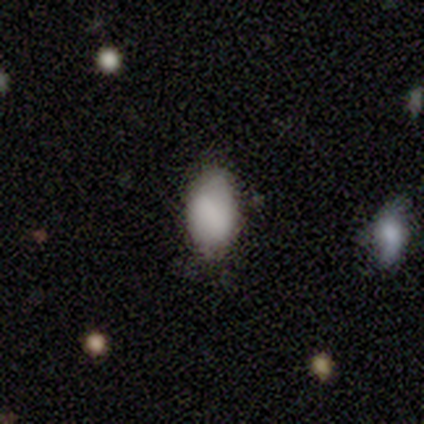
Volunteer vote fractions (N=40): A smooth galaxy with no disk features (82%) that is in between round and cigar-shaped (94%).

Vote fractions:
- Smooth or featured? smooth: 82% / star or artifact: 10% / featured or disk: 8%
- How rounded? in between: 94% / round: 6% / cigar-shaped: 0%
- Merging? none: 78% / minor disturbance: 22% / major disturbance: 0% / merger: 0%